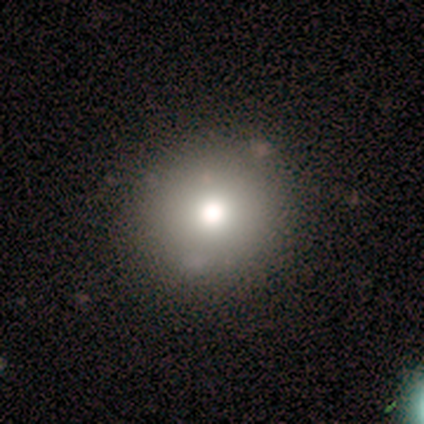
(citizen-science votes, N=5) This appears to be a smooth galaxy with no disk features (100%) that is round (100%). Merging: none (60%).